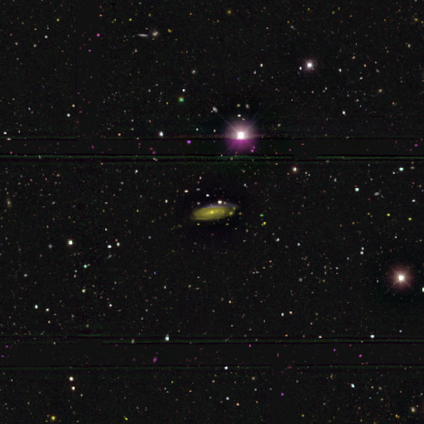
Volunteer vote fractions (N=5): Smooth or featured? featured or disk (80%)
Edge-on disk? no (75%)
Bar? strong (33%, tied with weak and no)
Spiral arms? yes (67%)
Spiral winding? tight (100%)
Spiral arm count? can't tell (100%)
Bulge size? moderate (67%)
Merging? none (50%)